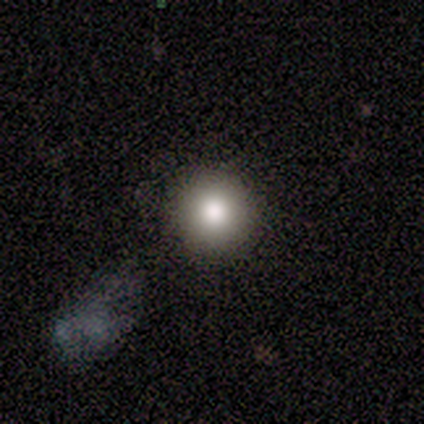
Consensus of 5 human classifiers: smooth_or_featured: smooth (p=1.00)
how_rounded: round (p=1.00)
merging: none (p=1.00)